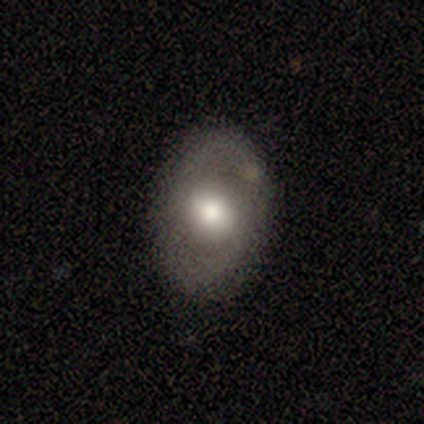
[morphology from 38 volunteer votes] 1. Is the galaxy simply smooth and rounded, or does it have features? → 53% smooth, 42% featured or disk, 5% star or artifact.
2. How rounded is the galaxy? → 85% in between, 15% round, 0% cigar-shaped.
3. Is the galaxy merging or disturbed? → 89% none, 6% minor disturbance, 6% major disturbance, 0% merger.